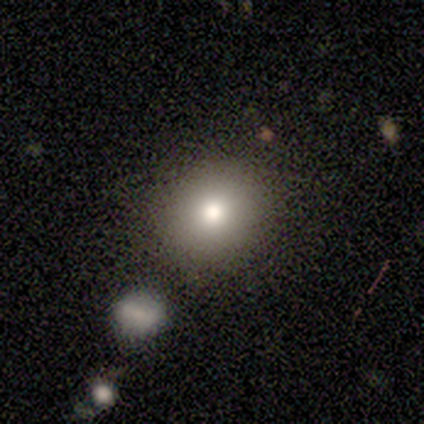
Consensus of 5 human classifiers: This is clearly a smooth galaxy (80%). How rounded: clearly round (100%). Merging: likely none (60%).